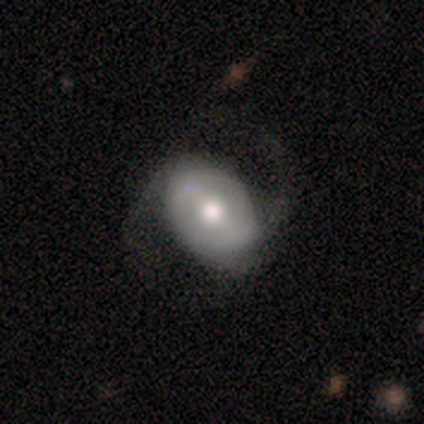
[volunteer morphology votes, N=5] type=smooth (60%); roundness=in between (100%); merging=none (60%).